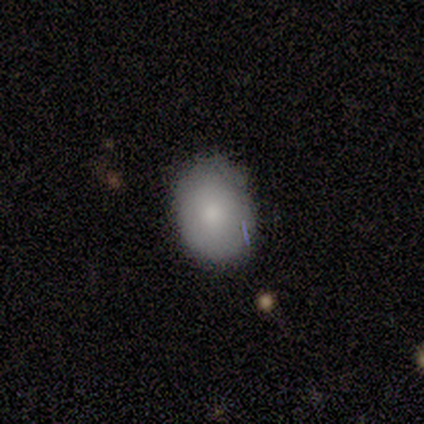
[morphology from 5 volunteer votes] smooth_or_featured: smooth (p=1.00)
how_rounded: in between (p=0.80) [alt: round p=0.20]
merging: none (p=1.00)